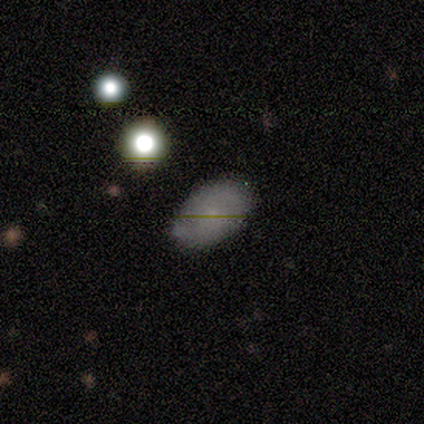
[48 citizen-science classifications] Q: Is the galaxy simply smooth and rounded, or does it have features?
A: smooth — 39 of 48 (81%).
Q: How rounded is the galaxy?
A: in between — 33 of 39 (85%).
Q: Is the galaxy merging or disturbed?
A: none — 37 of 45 (82%).